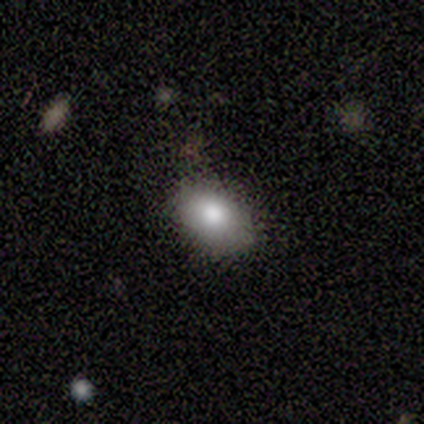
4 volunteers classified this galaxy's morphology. Smooth or featured?
  - smooth: 75% *
  - featured or disk: 25%
  - star or artifact: 0%
How rounded?
  - in between: 67% *
  - round: 33%
  - cigar-shaped: 0%
Merging?
  - none: 100% *
  - minor disturbance: 0%
  - major disturbance: 0%
  - merger: 0%